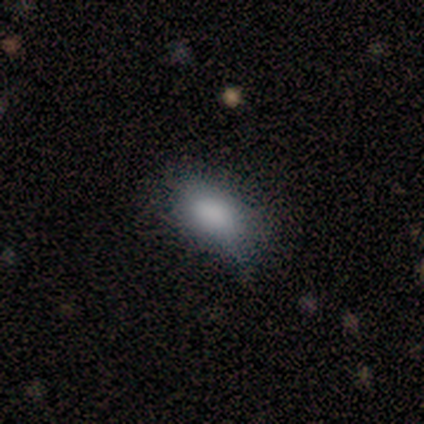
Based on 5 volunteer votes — This appears to be a smooth galaxy with no disk features (80%) that is in between round and cigar-shaped (100%). Merging: none (100%).